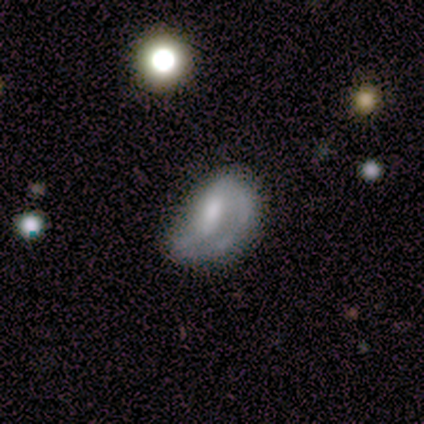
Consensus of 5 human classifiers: Volunteers were most divided on "spiral winding" (2-way tie): medium: 50%, loose: 50%, tight: 0%. More confident: edge-on disk — no (100%); spiral arms — yes (100%); smooth or featured — featured or disk (80%); bar — no (50%); spiral arm count — 2 (50%); bulge size — moderate (50%); merging — major disturbance (50%).